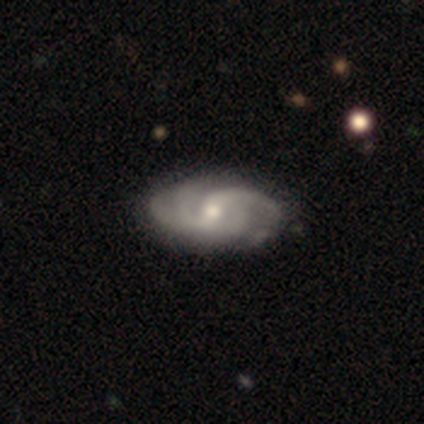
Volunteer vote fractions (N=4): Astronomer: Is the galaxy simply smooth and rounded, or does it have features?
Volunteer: featured or disk — 100%.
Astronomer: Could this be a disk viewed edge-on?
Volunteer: no — 100%.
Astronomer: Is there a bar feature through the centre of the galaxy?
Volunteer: strong — 50%.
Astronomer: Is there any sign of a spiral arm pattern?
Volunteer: yes — 100%.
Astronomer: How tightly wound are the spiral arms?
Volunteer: medium — 50%.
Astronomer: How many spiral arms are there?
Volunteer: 2 — 50%.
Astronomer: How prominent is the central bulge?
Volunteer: small — 50%.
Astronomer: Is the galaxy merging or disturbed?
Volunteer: none — 75%.